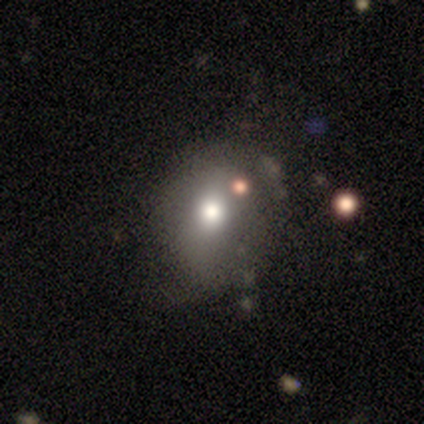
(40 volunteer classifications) This appears to be a smooth galaxy with no disk features (70%) that is round (68%). Merging: none (37%).